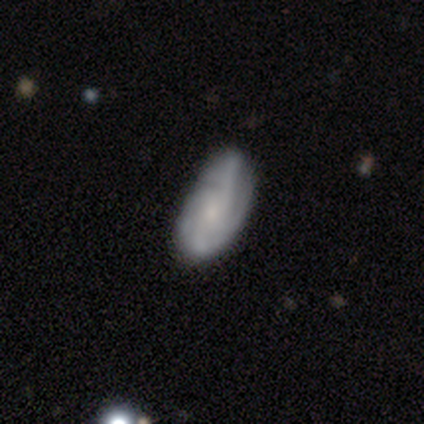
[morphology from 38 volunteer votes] Overall: featured or disk (71%). Edge-on disk: no (96%). Bar: no (85%). Spiral arms: yes (92%). Spiral arm count: can't tell (46%; 4 25%). Spiral winding: medium (54%; tight 25%). Bulge size: small (62%). Merging: none (39%; minor disturbance 22%).